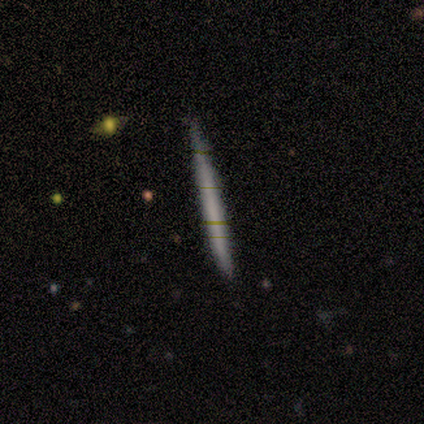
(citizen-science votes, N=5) Volunteers were most divided on "edge-on bulge": none: 67%, boxy: 33%, rounded: 0%. More confident: edge-on disk — yes (100%); merging — none (75%); smooth or featured — featured or disk (60%).